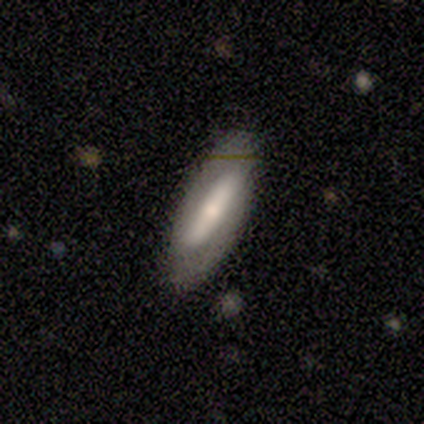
A smooth galaxy with no disk features (80%) that is in between round and cigar-shaped (50%, tied with cigar-shaped). Merging: none (80%).